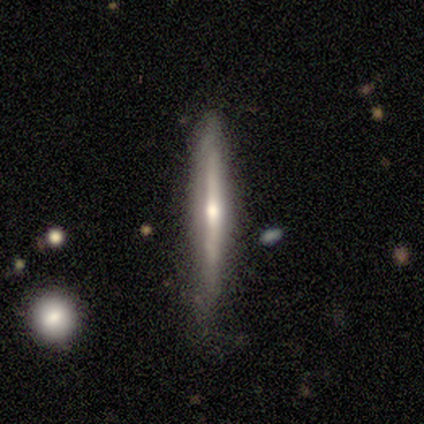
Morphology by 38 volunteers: A featured or disk galaxy (68%) viewed edge-on (100%) with a rounded central bulge (73%).

Vote fractions:
- Smooth or featured? featured or disk: 68% / smooth: 26% / star or artifact: 5%
- Edge-on disk? yes: 100% / no: 0%
- Edge-on bulge? rounded: 73% / none: 27% / boxy: 0%
- Merging? none: 75% / minor disturbance: 19% / major disturbance: 3% / merger: 3%